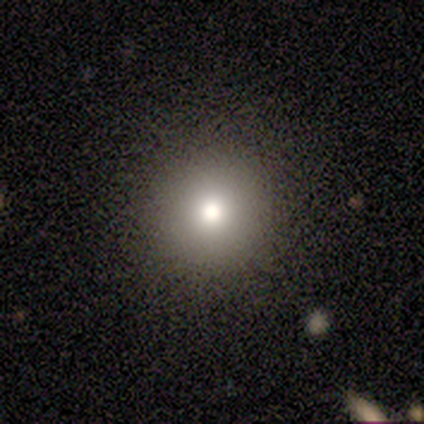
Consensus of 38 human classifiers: This is clearly a smooth galaxy (89%). How rounded: clearly round (94%). Merging: likely none (63%).